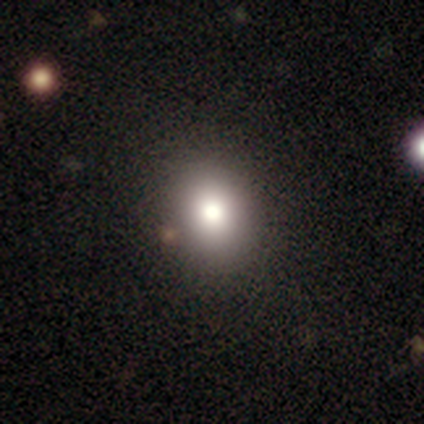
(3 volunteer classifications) Smooth or featured: star or artifact — 67% (featured or disk — 33%)